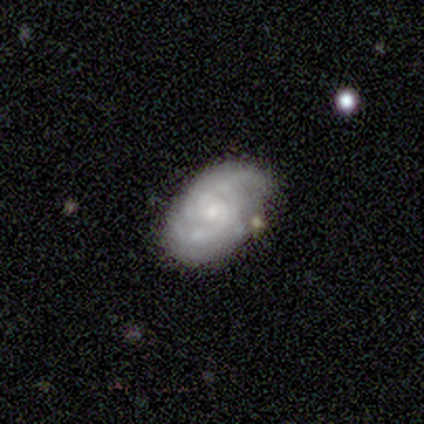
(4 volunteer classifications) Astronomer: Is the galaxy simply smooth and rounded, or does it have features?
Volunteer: featured or disk — 75%.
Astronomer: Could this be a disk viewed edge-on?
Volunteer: no — 100%.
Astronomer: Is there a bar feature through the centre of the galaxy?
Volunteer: weak — 67%.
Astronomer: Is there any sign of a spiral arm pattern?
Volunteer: yes — 100%.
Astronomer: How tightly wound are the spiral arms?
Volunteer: tight — 67%.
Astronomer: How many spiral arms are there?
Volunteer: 2 — 67%.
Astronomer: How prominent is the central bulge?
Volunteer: small — 67%.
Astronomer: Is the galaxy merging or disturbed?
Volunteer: none — 75%.